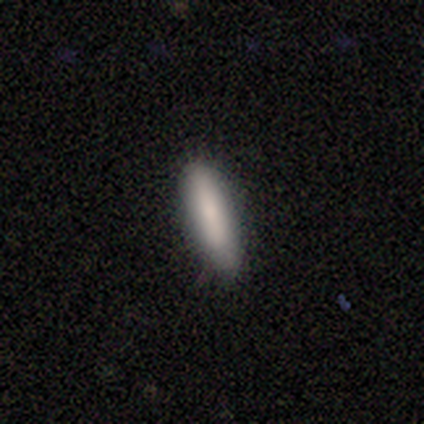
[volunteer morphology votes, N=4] Smooth or featured? 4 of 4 (100%) said smooth. How rounded? 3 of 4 (75%) said cigar-shaped. Merging? 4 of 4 (100%) said none.